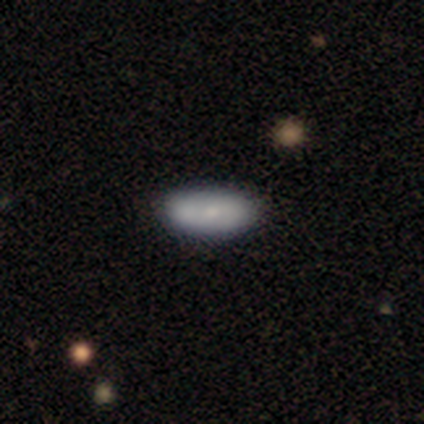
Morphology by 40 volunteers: Smooth or featured? 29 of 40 (72%) said smooth. How rounded? 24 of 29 (83%) said in between. Merging? 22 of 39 (56%) said none.